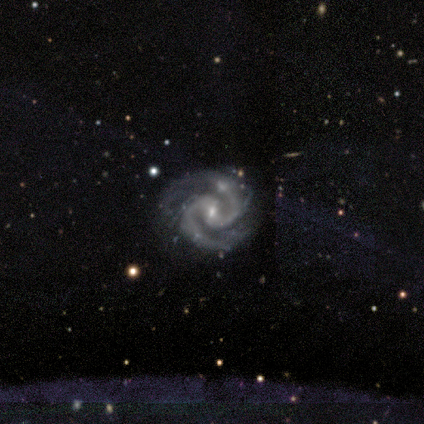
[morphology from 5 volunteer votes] This appears to be a featured or disk galaxy (100%) with a strong bar (40%, tied with weak), 2 (80%) medium (60%) spiral arms (100%) and a small central bulge (60%). Merging: none (40%, tied with minor disturbance).